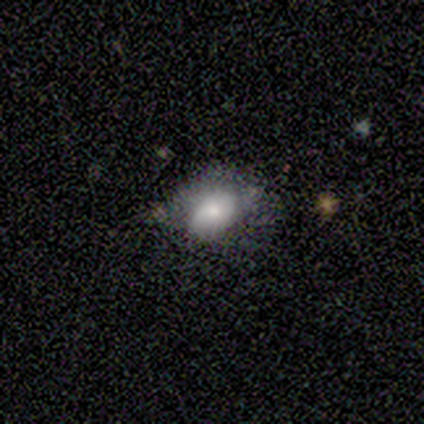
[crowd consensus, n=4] This appears to be a smooth galaxy with no disk features (75%) that is in between round and cigar-shaped (100%). Merging: none (50%, tied with minor disturbance).